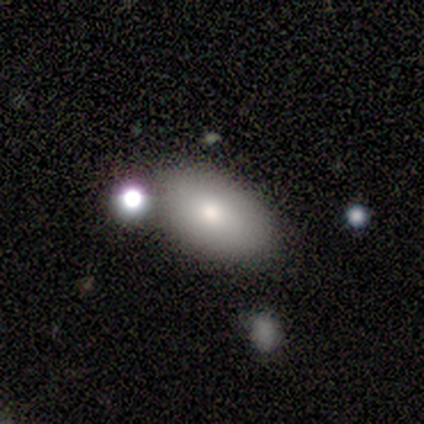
Smooth or featured?
  - smooth: 60% *
  - featured or disk: 20%
  - star or artifact: 20%
How rounded?
  - in between: 67% *
  - round: 33%
  - cigar-shaped: 0%
Merging?
  - none: 75% *
  - minor disturbance: 25%
  - major disturbance: 0%
  - merger: 0%